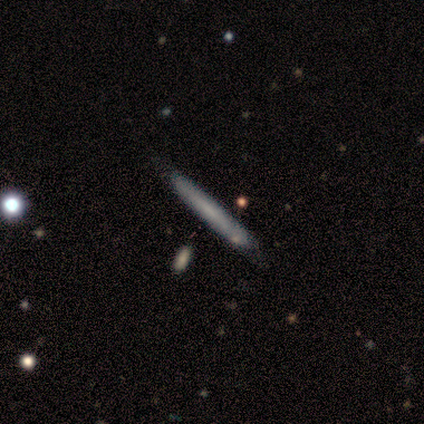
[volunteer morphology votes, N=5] Volunteers were most divided on "smooth or featured": featured or disk: 60%, smooth: 40%, star or artifact: 0%. More confident: edge-on disk — yes (100%); edge-on bulge — none (100%); merging — none (100%).